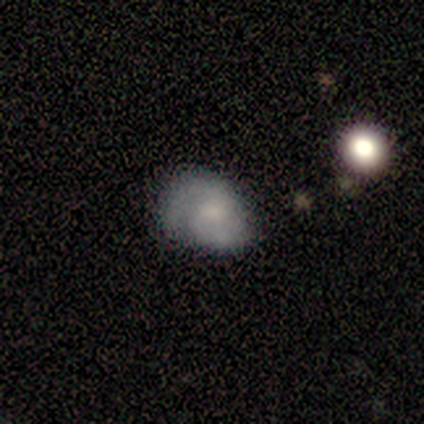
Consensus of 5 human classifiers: Volunteers were most divided on "spiral arm count" (3-way tie): 1: 33%, 2: 33%, can't tell: 33%, 3: 0%, 4: 0%, more than 4: 0%. More confident: edge-on disk — no (100%); spiral arms — yes (100%); bar — no (67%); spiral winding — medium (67%); bulge size — small (67%); smooth or featured — featured or disk (60%); merging — none (60%).